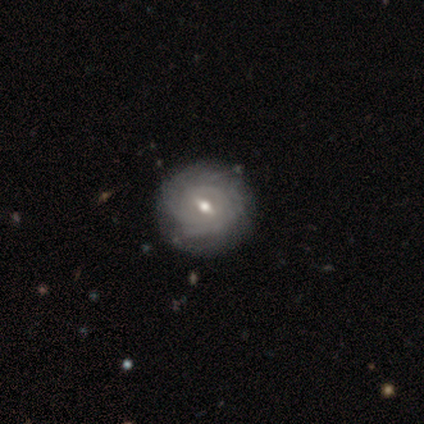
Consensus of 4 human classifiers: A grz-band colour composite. It shows a featured or disk galaxy (100%) with a weak bar (50%), tight (100%) spiral arms (100%) and a moderate central bulge (75%). Merging: none (75%).